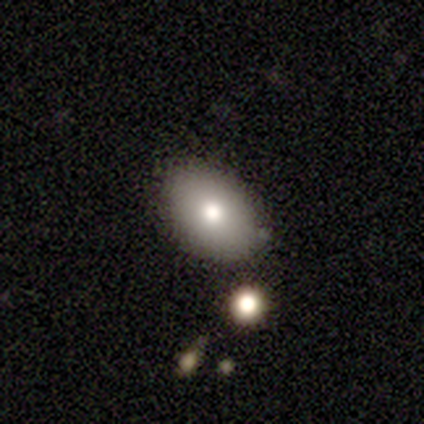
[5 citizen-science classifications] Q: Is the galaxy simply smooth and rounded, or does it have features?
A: smooth — 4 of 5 (80%).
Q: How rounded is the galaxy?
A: in between — 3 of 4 (75%).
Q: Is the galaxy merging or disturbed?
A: none — 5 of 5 (100%).